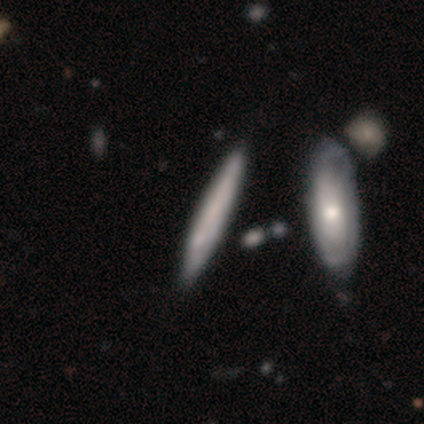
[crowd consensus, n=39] Overall: smooth (59%; featured or disk 38%). How rounded: cigar-shaped (83%). Merging: none (53%; minor disturbance 24%).